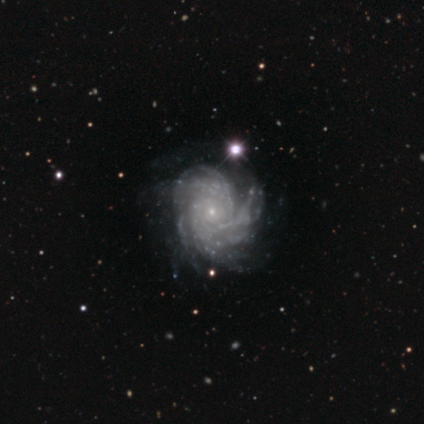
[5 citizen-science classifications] Morphology: type=featured or disk (100%); edge-on=no (100%); bar=no (100%); spiral arms=yes (100%); winding=medium (100%); arm count=more than 4 (40%, tied with can't tell); bulge=small (80%); merging=none (60%).